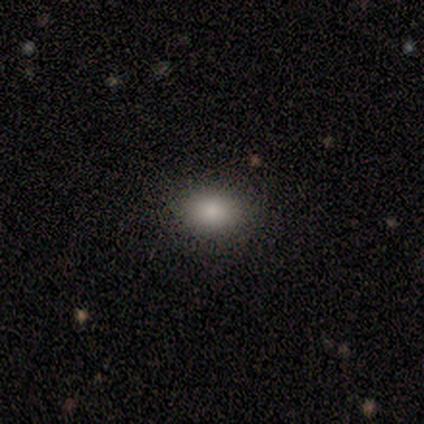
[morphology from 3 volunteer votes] Q: Smooth or featured?
A: smooth (100%)
Q: How rounded?
A: round (67%); runner-up: in between (33%)
Q: Merging?
A: none (67%); runner-up: minor disturbance (33%)